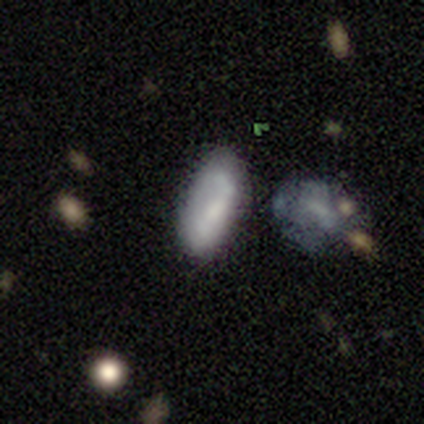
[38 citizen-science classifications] Smooth or featured: smooth — 61% (featured or disk — 34%)
How rounded: in between — 91% (cigar-shaped — 9%)
Merging: none — 69% (minor disturbance — 19%)